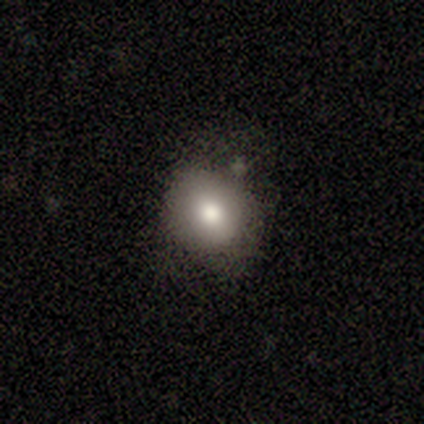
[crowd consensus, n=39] Smooth or featured: smooth — 85% (star or artifact — 10%)
How rounded: round — 88% (in between — 12%)
Merging: none — 80% (minor disturbance — 14%)